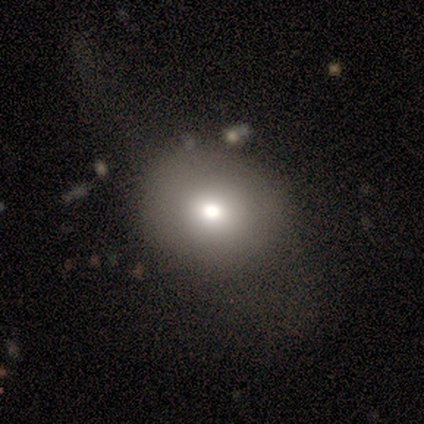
smooth_or_featured: featured or disk (p=0.60) [alt: smooth p=0.40]
disk_edge_on: no (p=1.00)
bar: no (p=1.00)
has_spiral_arms: no (p=1.00)
bulge_size: moderate (p=0.67) [alt: large p=0.33]
merging: none (p=0.40) [tied with: major disturbance p=0.40]